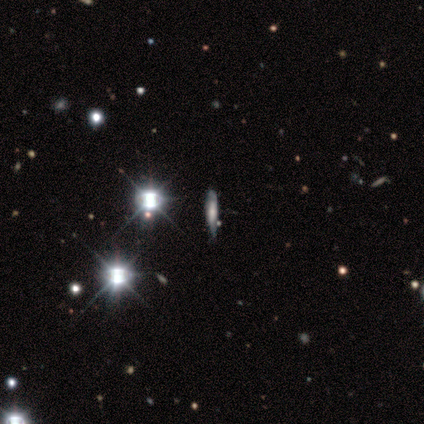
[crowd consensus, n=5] Overall: smooth (40%, tied with featured or disk). How rounded: in between (50%, tied with cigar-shaped). Merging: minor disturbance (75%).